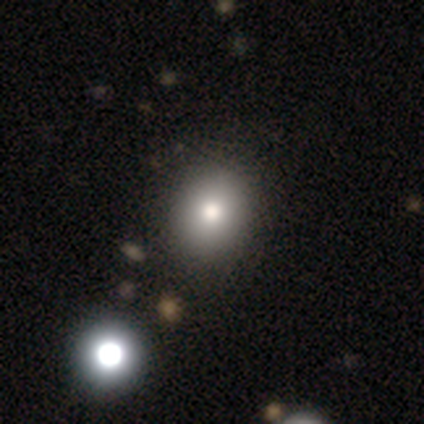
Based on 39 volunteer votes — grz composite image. It shows a smooth galaxy with no disk features (74%) that is round (72%). Merging: none (65%).